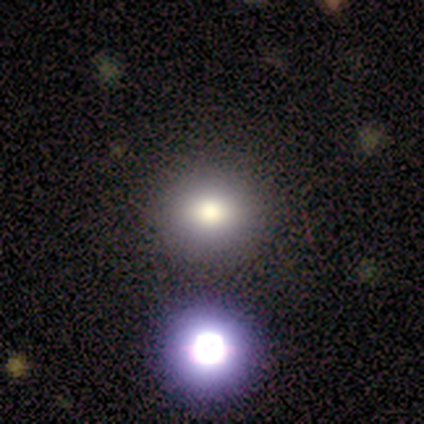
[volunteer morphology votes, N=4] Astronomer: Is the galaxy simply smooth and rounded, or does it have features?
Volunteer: smooth — 50%.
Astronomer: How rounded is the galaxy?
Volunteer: round — 100%.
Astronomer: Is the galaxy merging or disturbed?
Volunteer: none — 67%.